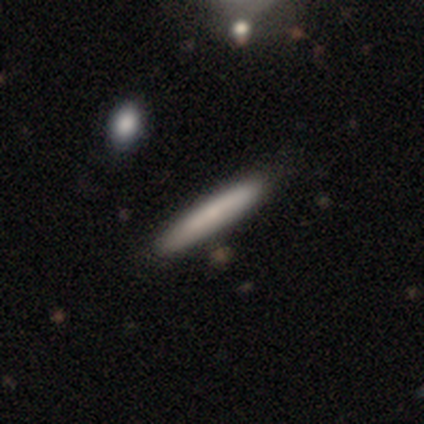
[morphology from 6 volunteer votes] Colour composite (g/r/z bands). It shows a smooth galaxy with no disk features (50%) that is cigar-shaped (100%). Merging: none (100%).